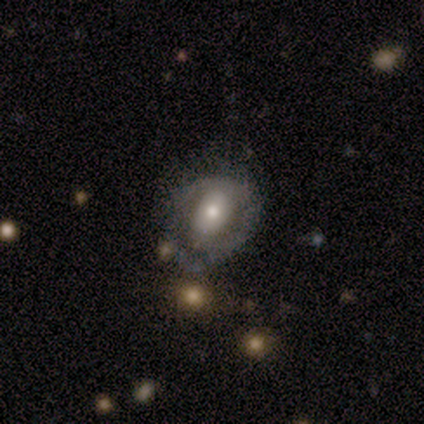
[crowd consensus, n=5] Volunteers were most divided on "merging": minor disturbance: 50%, none: 25%, major disturbance: 25%, merger: 0%. More confident: how rounded — in between (100%); smooth or featured — smooth (60%).